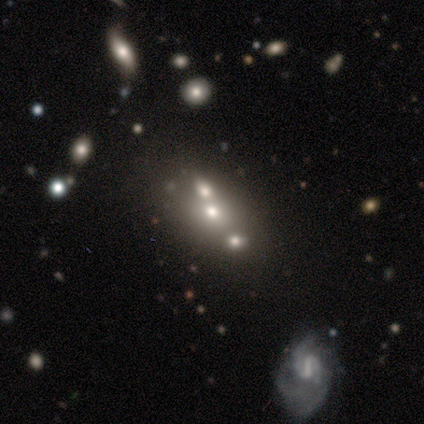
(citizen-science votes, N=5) Q: Smooth or featured?
A: featured or disk (60%); runner-up: smooth (40%)
Q: Edge-on disk?
A: no (100%)
Q: Bar?
A: no (100%)
Q: Spiral arms?
A: no (100%)
Q: Bulge size?
A: moderate (33%); tied with: small (33%); none (33%)
Q: Merging?
A: none (60%); runner-up: merger (40%)